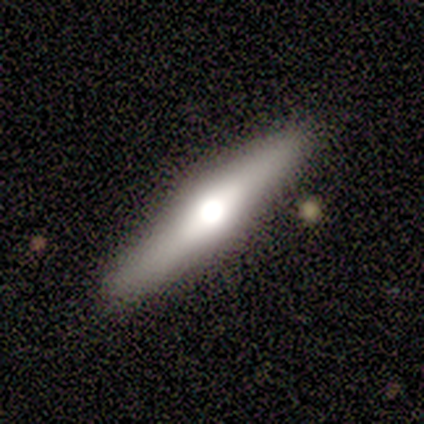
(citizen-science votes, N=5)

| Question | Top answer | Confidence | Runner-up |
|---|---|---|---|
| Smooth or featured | featured or disk | 60% | smooth (40%) |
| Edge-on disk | yes | 100% | — |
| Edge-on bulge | rounded | 100% | — |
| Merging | none | 100% | — |